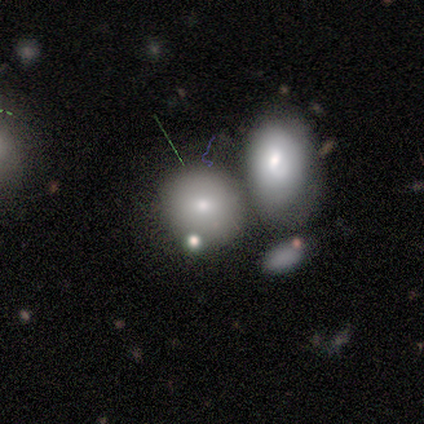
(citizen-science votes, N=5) This is clearly a smooth galaxy (100%). How rounded: clearly round (100%). Merging: likely merger (60%).